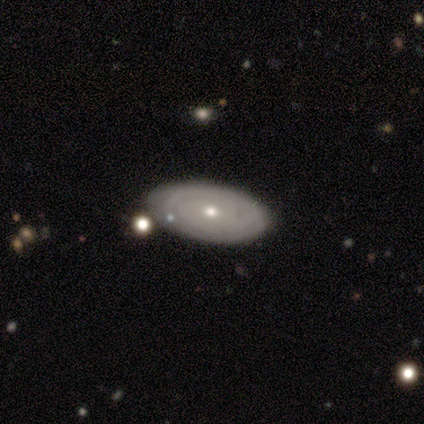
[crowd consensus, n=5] featured or disk 80%, smooth 20%, star or artifact 0%. Down the decision tree: edge-on disk — no (100%); bar — no (75%); spiral arms — yes (100%); spiral arm count — 2 (50%, tied with can't tell); spiral winding — tight (100%); bulge size — moderate (50%, tied with small); merging — none (80%).